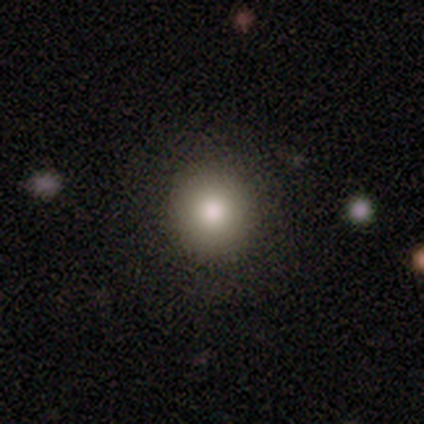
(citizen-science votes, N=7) smooth 100%, featured or disk 0%, star or artifact 0%. Down the decision tree: how rounded — round (100%); merging — none (100%).